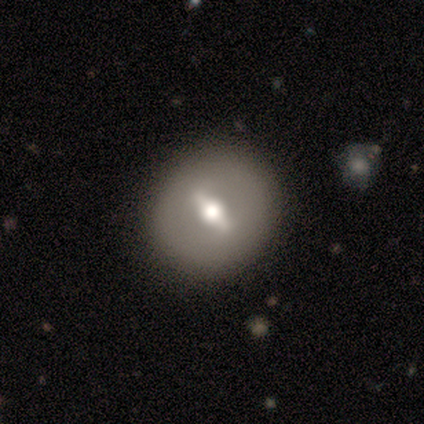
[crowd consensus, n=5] Smooth or featured? featured or disk (80%)
Edge-on disk? no (75%)
Bar? strong (100%)
Spiral arms? no (67%)
Bulge size? large (67%)
Merging? none (100%)